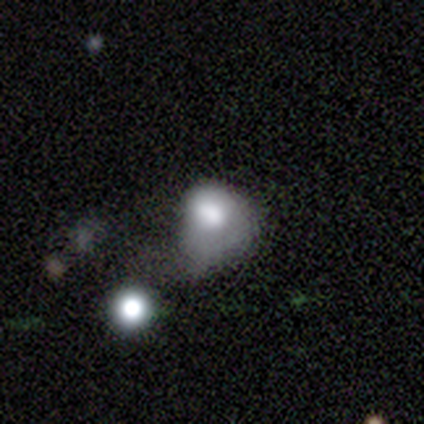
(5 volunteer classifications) A smooth galaxy with no disk features (60%) that is round (67%). Merging: major disturbance (75%).